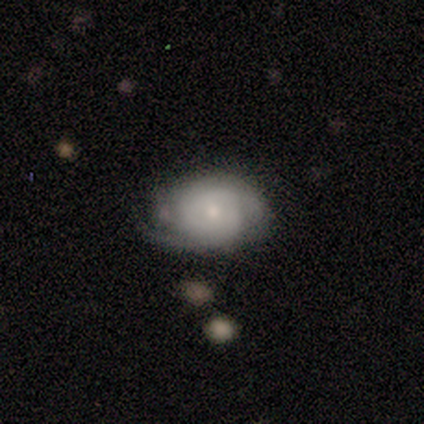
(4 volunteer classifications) smooth-or-featured: smooth: 50% (tied) | featured or disk: 50% (tied) | star or artifact: 0%
  how-rounded: in between: 100% | round: 0% | cigar-shaped: 0%
  merging: minor disturbance: 50% | none: 25% | merger: 25% | major disturbance: 0%